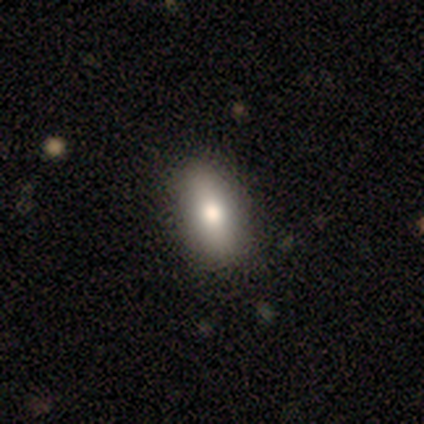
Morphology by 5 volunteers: This is marginally a smooth galaxy (40%, tied with featured or disk). How rounded: possibly in between (50%, tied with cigar-shaped). Merging: clearly none (100%).